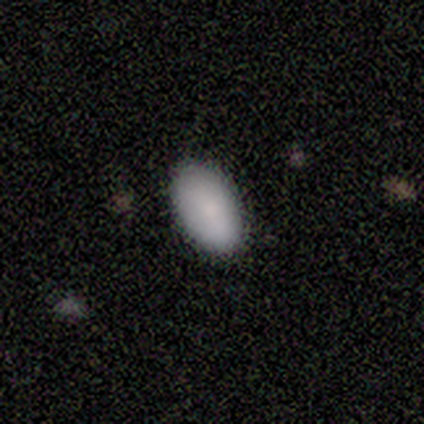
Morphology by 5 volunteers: A smooth galaxy with no disk features (80%) that is in between round and cigar-shaped (100%).

Vote fractions:
- Smooth or featured? smooth: 80% / featured or disk: 20% / star or artifact: 0%
- How rounded? in between: 100% / round: 0% / cigar-shaped: 0%
- Merging? none: 100% / minor disturbance: 0% / major disturbance: 0% / merger: 0%